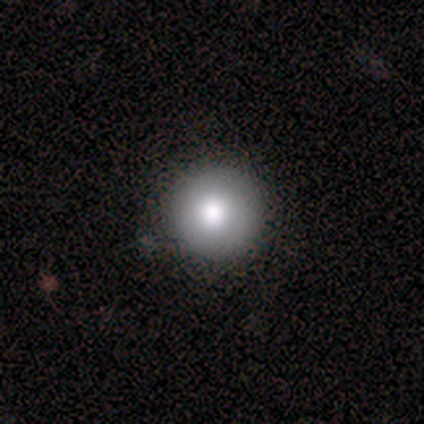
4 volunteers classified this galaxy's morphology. A smooth galaxy with no disk features (75%) that is round (100%). Merging: none (100%).